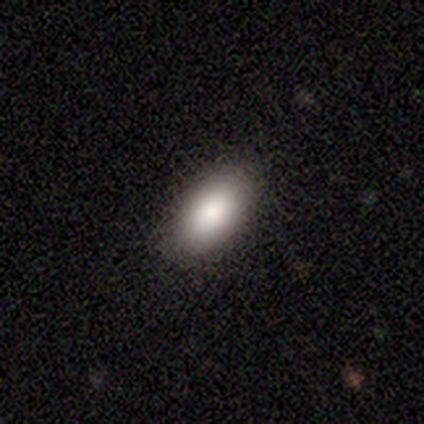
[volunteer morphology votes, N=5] Smooth or featured? smooth (100%)
How rounded? in between (80%)
Merging? none (80%)